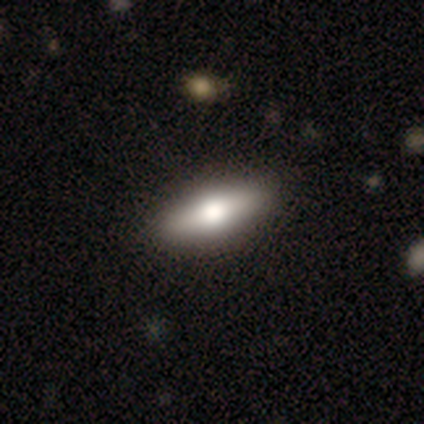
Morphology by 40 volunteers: Smooth or featured? 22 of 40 (55%) said featured or disk. Edge-on disk? 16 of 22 (73%) said yes. Edge-on bulge? 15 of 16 (94%) said rounded. Merging? 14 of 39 (36%) said none.